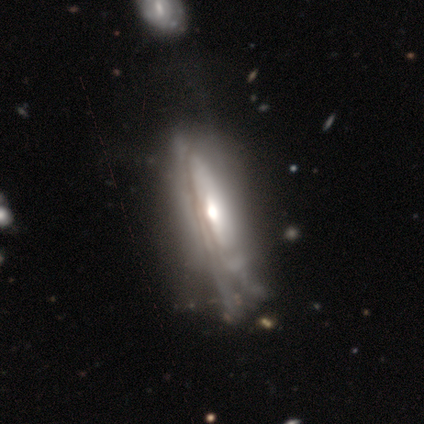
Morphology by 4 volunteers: featured or disk 100%, smooth 0%, star or artifact 0%. Down the decision tree: edge-on disk — yes (75%); edge-on bulge — rounded (100%); merging — minor disturbance (50%).